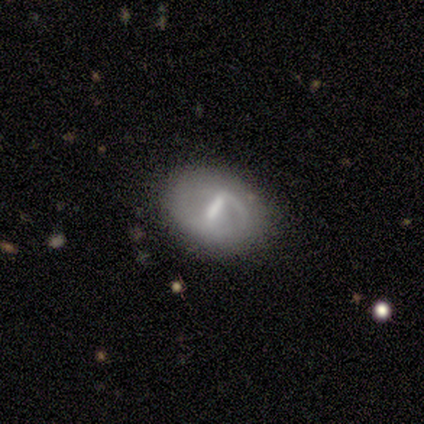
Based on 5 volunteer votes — This appears to be a featured or disk galaxy (100%) with a strong bar (80%), medium (67%) spiral arms (60%) and a moderate central bulge (80%). Merging: none (100%).